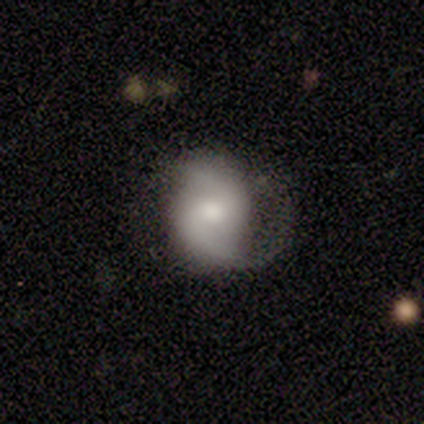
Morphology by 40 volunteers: featured or disk 68%, smooth 30%, star or artifact 2%. Down the decision tree: edge-on disk — no (100%); bar — weak (56%); spiral arms — yes (100%); spiral arm count — 2 (93%); spiral winding — medium (44%); bulge size — moderate (59%); merging — none (46%).